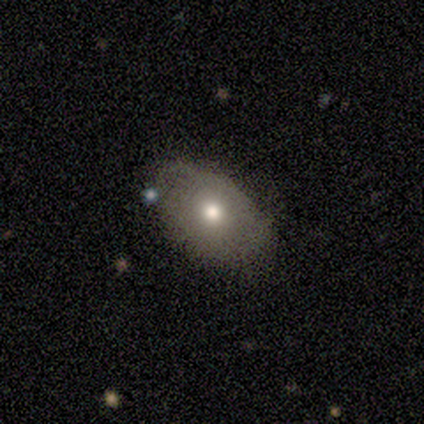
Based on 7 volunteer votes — smooth 57%, featured or disk 43%, star or artifact 0%. Down the decision tree: how rounded — in between (100%); merging — none (86%).